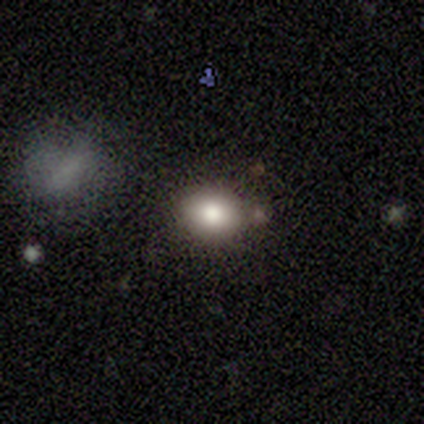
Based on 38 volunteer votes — A smooth galaxy with no disk features (66%) that is round (68%). Merging: none (65%).